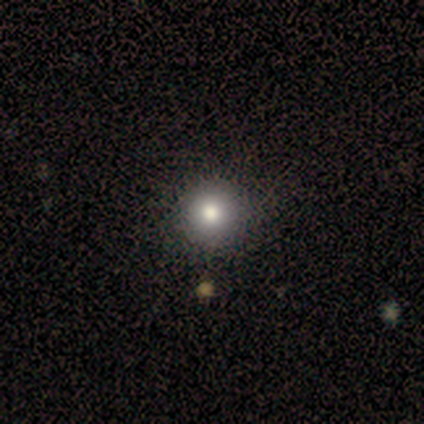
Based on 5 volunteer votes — Q: Smooth or featured?
A: smooth (100%)
Q: How rounded?
A: round (100%)
Q: Merging?
A: none (80%); runner-up: merger (20%)